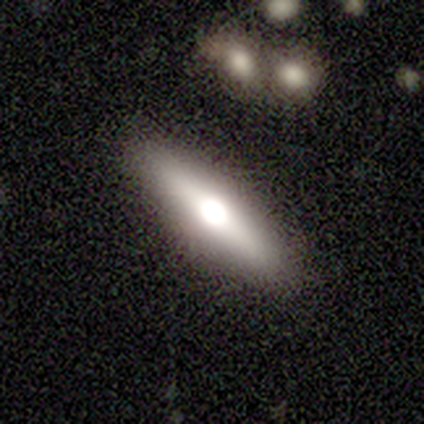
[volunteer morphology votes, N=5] Smooth or featured? smooth (60%)
How rounded? cigar-shaped (67%)
Merging? none (80%)